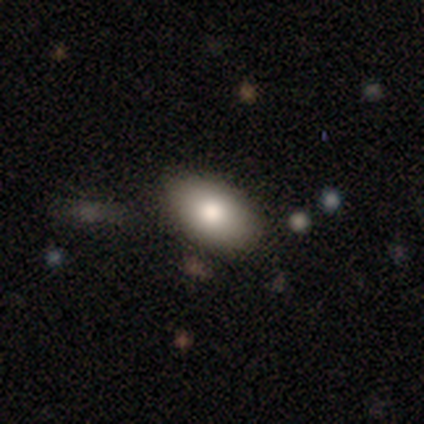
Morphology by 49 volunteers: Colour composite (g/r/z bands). It shows a smooth galaxy with no disk features (80%) that is in between round and cigar-shaped (90%). Merging: none (80%).